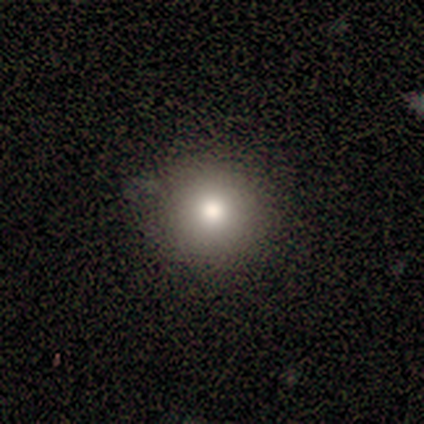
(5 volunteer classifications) Smooth or featured?
  - smooth: 80% *
  - featured or disk: 20%
  - star or artifact: 0%
How rounded?
  - round: 100% *
  - in between: 0%
  - cigar-shaped: 0%
Merging?
  - none: 100% *
  - minor disturbance: 0%
  - major disturbance: 0%
  - merger: 0%